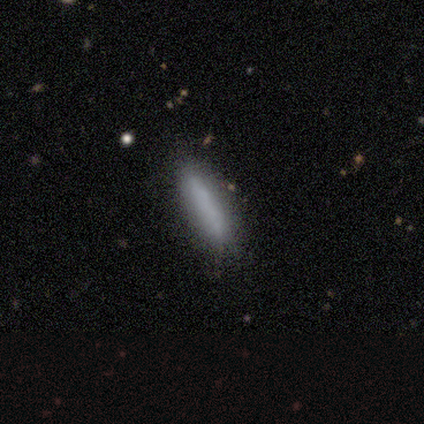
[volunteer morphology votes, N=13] smooth_or_featured: smooth (p=0.92) [alt: star or artifact p=0.08]
how_rounded: cigar-shaped (p=0.75) [alt: in between p=0.25]
merging: none (p=0.92) [alt: minor disturbance p=0.08]